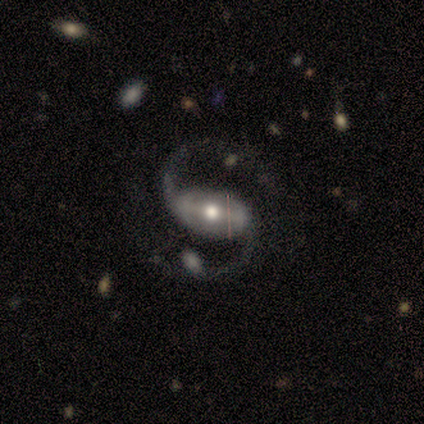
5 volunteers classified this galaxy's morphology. Volunteers were most divided on "bar" (2-way tie): weak: 40%, no: 40%, strong: 20%. More confident: smooth or featured — featured or disk (100%); edge-on disk — no (100%); spiral arms — yes (100%); spiral winding — loose (100%); spiral arm count — 2 (100%); merging — none (60%); bulge size — moderate (60%).